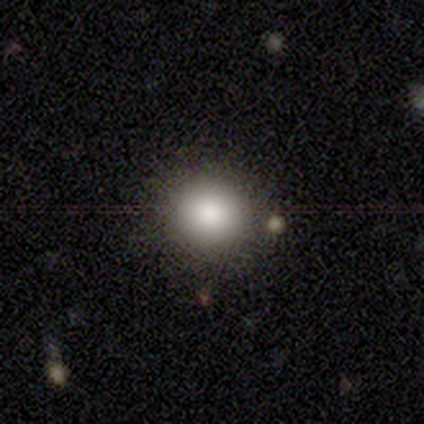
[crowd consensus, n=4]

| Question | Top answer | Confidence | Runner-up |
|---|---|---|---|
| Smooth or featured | smooth | 50% | featured or disk (25%) |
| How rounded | round | 100% | — |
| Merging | none | 67% | major disturbance (33%) |